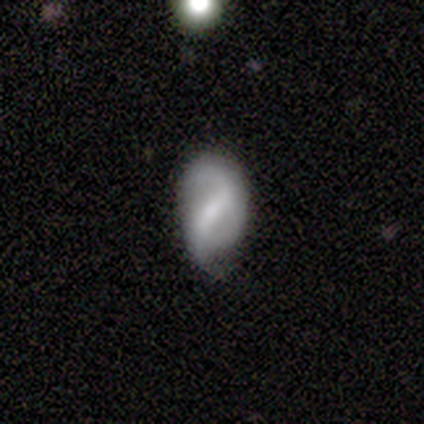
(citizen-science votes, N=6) Volunteers were most divided on "merging": none: 60%, minor disturbance: 40%, major disturbance: 0%, merger: 0%. More confident: edge-on disk — no (100%); spiral arm count — 2 (100%); bar — weak (75%); spiral arms — yes (75%); bulge size — moderate (75%); spiral winding — loose (67%); smooth or featured — featured or disk (67%).